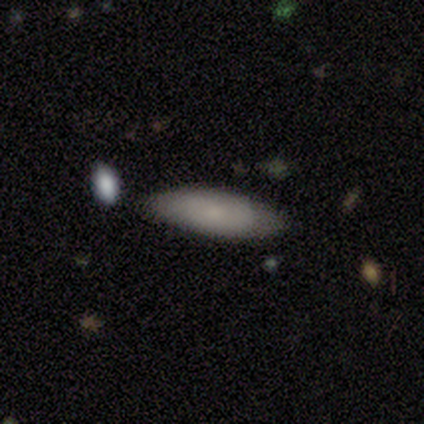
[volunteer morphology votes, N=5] A smooth galaxy with no disk features (80%) that is in between round and cigar-shaped (100%). Merging: none (60%).